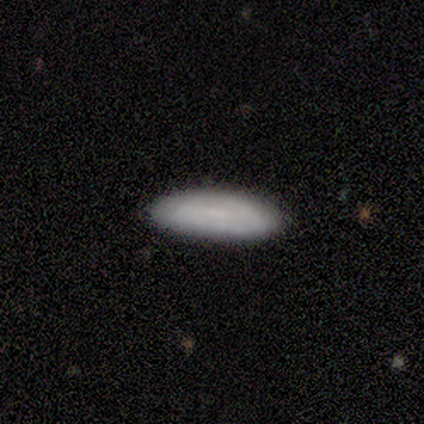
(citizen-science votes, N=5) smooth_or_featured: smooth (p=0.60) [alt: featured or disk p=0.40]
how_rounded: in between (p=0.67) [alt: cigar-shaped p=0.33]
merging: none (p=0.80) [alt: minor disturbance p=0.20]